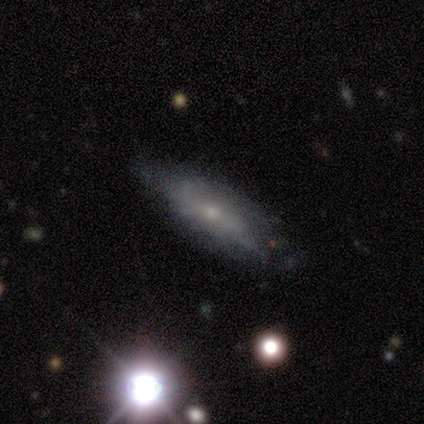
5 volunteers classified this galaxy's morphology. smooth 40% (tied), featured or disk 40% (tied), star or artifact 20%. Down the decision tree: how rounded — in between (100%); merging — none (75%).